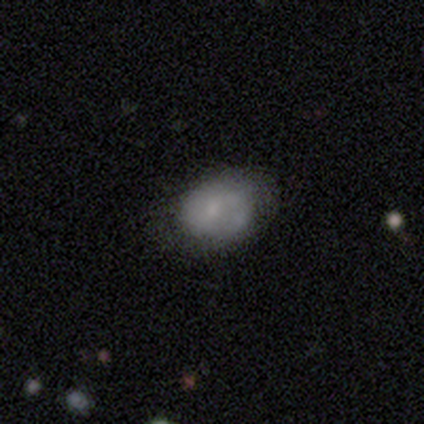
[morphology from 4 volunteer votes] smooth 75%, star or artifact 25%, featured or disk 0%. Down the decision tree: how rounded — in between (67%); merging — none (67%).